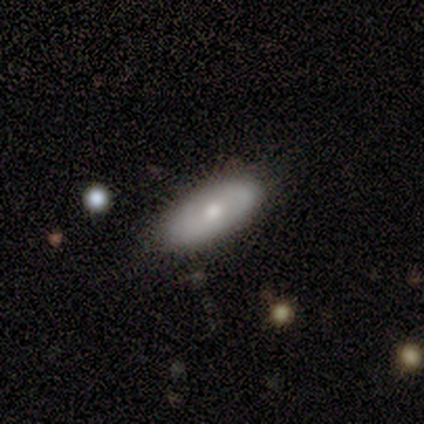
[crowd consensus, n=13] smooth 62%, featured or disk 31%, star or artifact 8%. Down the decision tree: how rounded — in between (100%); merging — none (92%).